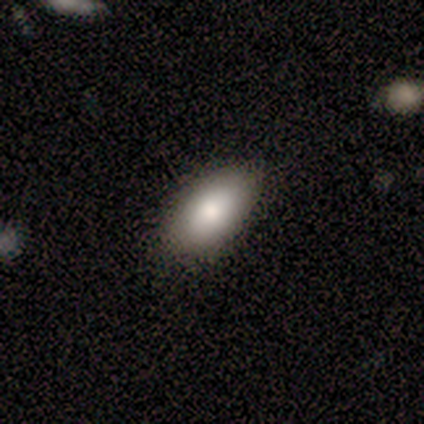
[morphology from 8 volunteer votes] Overall: smooth (88%). How rounded: in between (100%). Merging: none (100%).